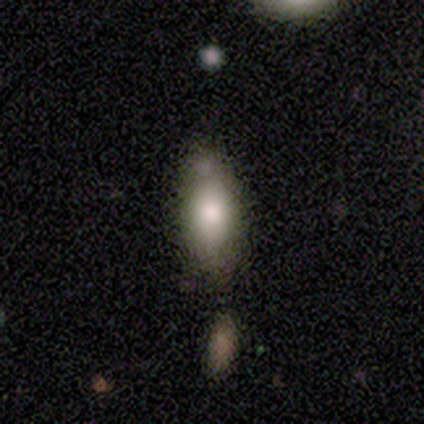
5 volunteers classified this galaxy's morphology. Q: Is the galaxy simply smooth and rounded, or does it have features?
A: smooth — 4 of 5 (80%).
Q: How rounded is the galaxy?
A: in between — 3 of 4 (75%).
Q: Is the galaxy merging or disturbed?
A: none — 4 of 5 (80%).